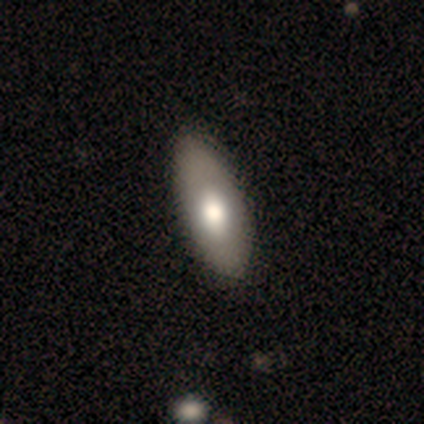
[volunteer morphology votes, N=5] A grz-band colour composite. It shows a smooth galaxy with no disk features (80%) that is in between round and cigar-shaped (100%). Merging: none (60%).